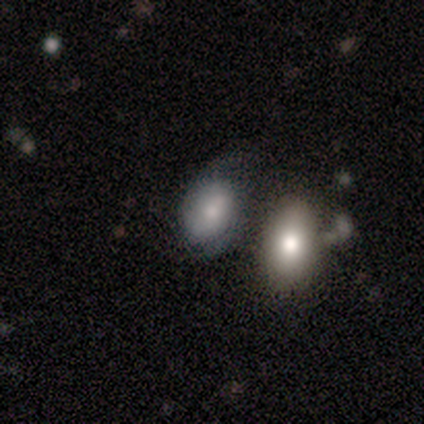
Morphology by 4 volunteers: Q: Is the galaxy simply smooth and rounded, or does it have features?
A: featured or disk — 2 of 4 (50%, tied with star or artifact).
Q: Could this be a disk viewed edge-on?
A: no — 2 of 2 (100%).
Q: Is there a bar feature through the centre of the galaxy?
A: weak — 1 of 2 (50%, tied with no).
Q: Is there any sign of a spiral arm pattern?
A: yes — 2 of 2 (100%).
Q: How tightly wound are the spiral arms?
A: medium — 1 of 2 (50%, tied with loose).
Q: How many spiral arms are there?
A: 2 — 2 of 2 (100%).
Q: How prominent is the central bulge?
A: small — 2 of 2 (100%).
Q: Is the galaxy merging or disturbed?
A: none — 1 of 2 (50%, tied with merger).